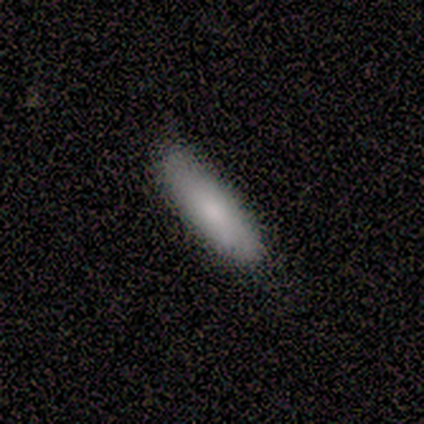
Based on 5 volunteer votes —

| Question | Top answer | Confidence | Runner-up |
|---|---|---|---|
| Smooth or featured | smooth | 100% | — |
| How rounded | cigar-shaped | 60% | in between (40%) |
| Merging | none | 80% | minor disturbance (20%) |